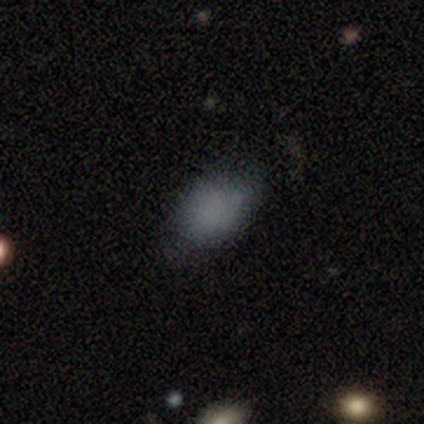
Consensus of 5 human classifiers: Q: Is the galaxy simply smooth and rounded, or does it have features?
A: smooth — 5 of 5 (100%).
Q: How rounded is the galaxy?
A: in between — 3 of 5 (60%).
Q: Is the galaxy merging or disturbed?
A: none — 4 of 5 (80%).